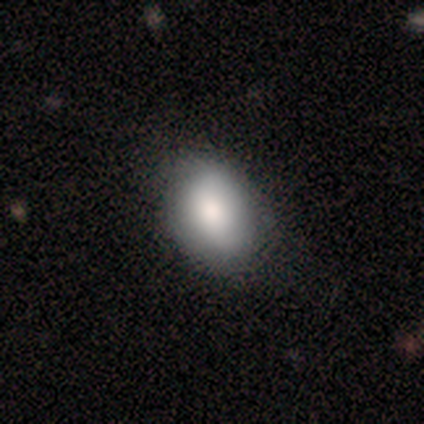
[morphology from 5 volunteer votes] Smooth or featured? 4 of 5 (80%) said smooth. How rounded? 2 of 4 (50%, tied with in between) said round. Merging? 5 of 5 (100%) said none.